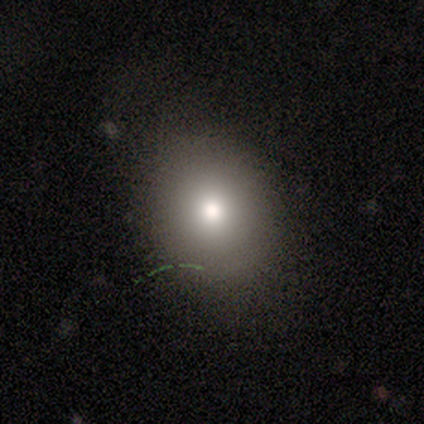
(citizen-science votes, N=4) Smooth or featured: smooth — 75% (featured or disk — 25%)
How rounded: round — 67% (in between — 33%)
Merging: none — 100%